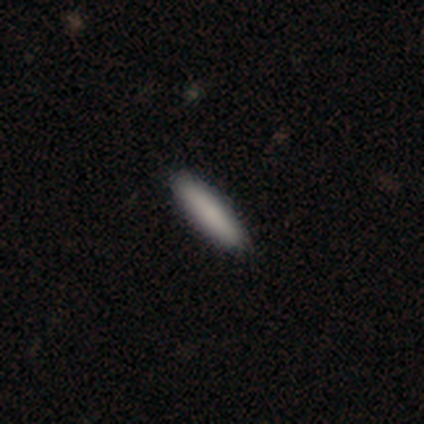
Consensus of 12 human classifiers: smooth 75%, featured or disk 17%, star or artifact 8%. Down the decision tree: how rounded — cigar-shaped (78%); merging — none (100%).